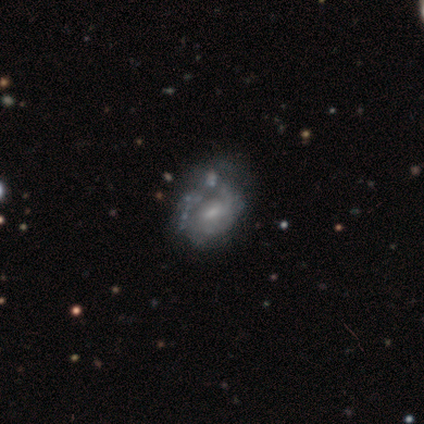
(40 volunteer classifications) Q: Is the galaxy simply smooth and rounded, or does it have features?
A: featured or disk — 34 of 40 (85%).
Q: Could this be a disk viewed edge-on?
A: no — 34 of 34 (100%).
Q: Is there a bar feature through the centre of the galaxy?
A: weak — 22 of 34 (65%).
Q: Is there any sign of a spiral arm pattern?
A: yes — 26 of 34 (76%).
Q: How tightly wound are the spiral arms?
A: medium — 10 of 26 (38%).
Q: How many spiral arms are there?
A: can't tell — 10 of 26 (38%).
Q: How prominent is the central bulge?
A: small — 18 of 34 (53%).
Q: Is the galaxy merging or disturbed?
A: none — 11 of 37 (30%).